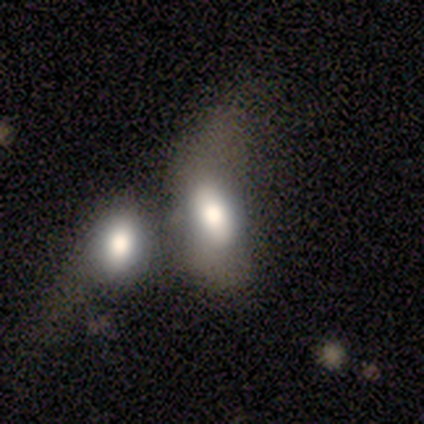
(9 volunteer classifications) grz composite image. It shows a smooth galaxy with no disk features (67%) that is in between round and cigar-shaped (83%). Merging: merger (56%).